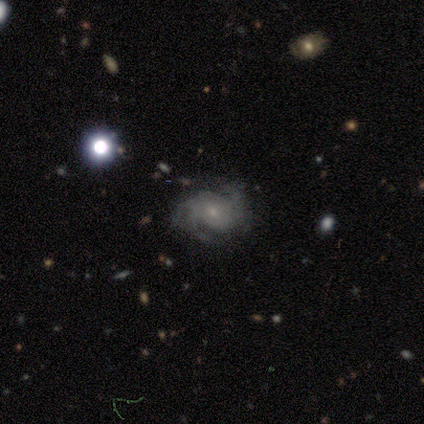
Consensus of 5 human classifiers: Smooth or featured? 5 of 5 (100%) said featured or disk. Edge-on disk? 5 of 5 (100%) said no. Bar? 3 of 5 (60%) said weak. Spiral arms? 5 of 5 (100%) said yes. Spiral winding? 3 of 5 (60%) said medium. Spiral arm count? 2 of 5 (40%) said 3. Bulge size? 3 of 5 (60%) said small. Merging? 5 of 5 (100%) said none.